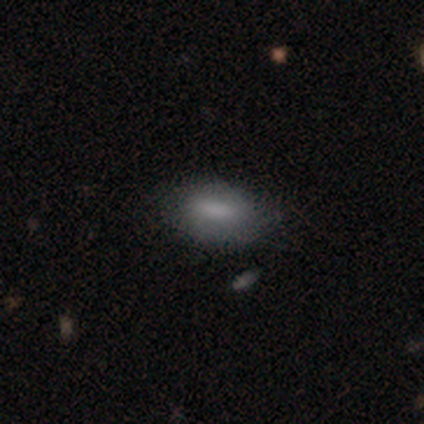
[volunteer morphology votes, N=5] Smooth or featured? 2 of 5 (40%, tied with featured or disk) said smooth. How rounded? 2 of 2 (100%) said in between. Merging? 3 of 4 (75%) said none.